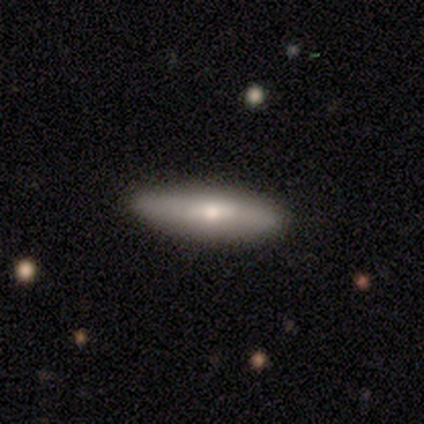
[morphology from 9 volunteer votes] smooth_or_featured: smooth (p=0.56) [alt: featured or disk p=0.33]
how_rounded: cigar-shaped (p=0.80) [alt: in between p=0.20]
merging: none (p=0.88) [alt: minor disturbance p=0.12]